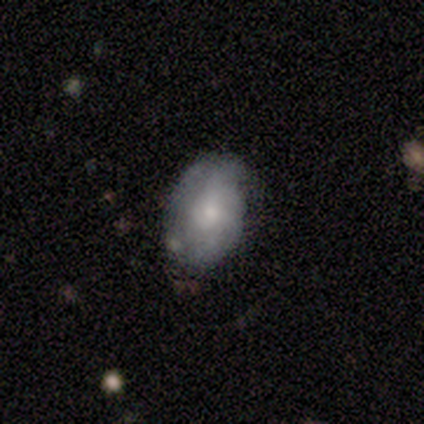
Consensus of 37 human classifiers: This is possibly a featured or disk galaxy (59%). It is clearly not viewed edge-on (100%). Bar: likely no (68%). Spiral arm pattern: likely yes (68%). Spiral arm count: possibly 2 (47%). Spiral winding: marginally medium (40%). Central bulge: possibly moderate (55%). Merging: likely none (74%).